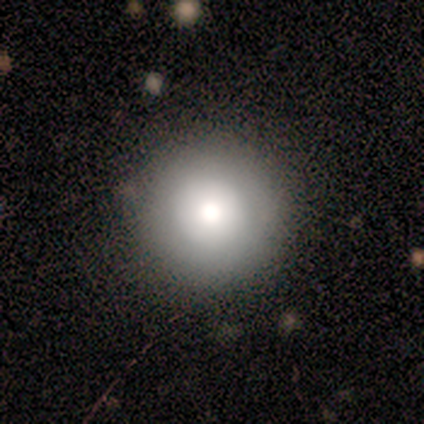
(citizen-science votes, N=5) smooth-or-featured: smooth: 40% (tied) | featured or disk: 40% (tied) | star or artifact: 20%
  how-rounded: round: 100% | in between: 0% | cigar-shaped: 0%
  merging: none: 100% | minor disturbance: 0% | major disturbance: 0% | merger: 0%